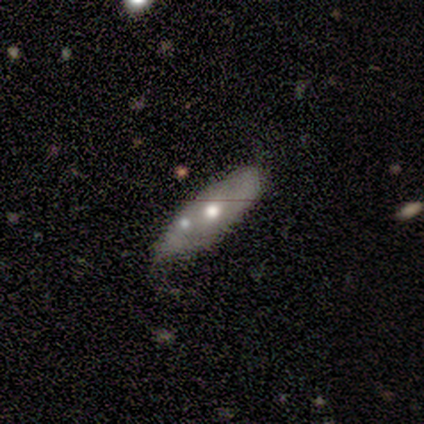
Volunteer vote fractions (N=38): This is likely a smooth galaxy (61%). How rounded: likely in between (74%). Merging: marginally none (39%, tied with minor disturbance).